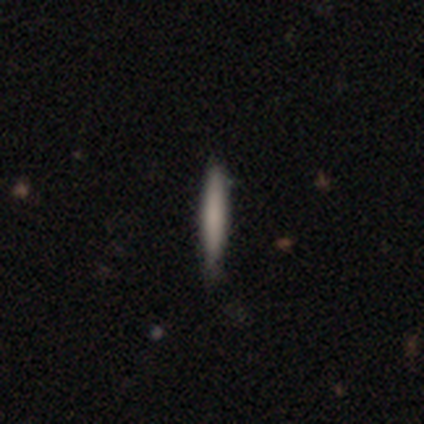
This is clearly a smooth galaxy (100%). How rounded: clearly cigar-shaped (100%). Merging: clearly none (80%).